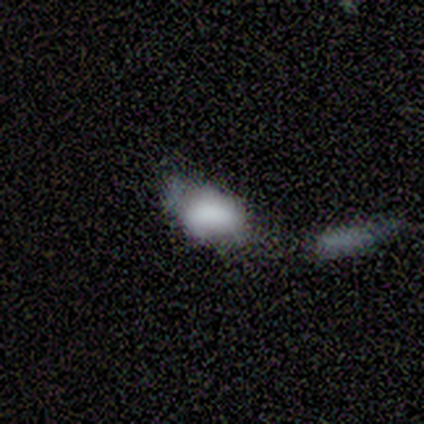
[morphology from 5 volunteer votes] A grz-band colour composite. It shows a featured or disk galaxy (60%) with a strong bar (33%, tied with weak and no), no spiral arms (100%) and a large central bulge (67%). Merging: merger (80%).